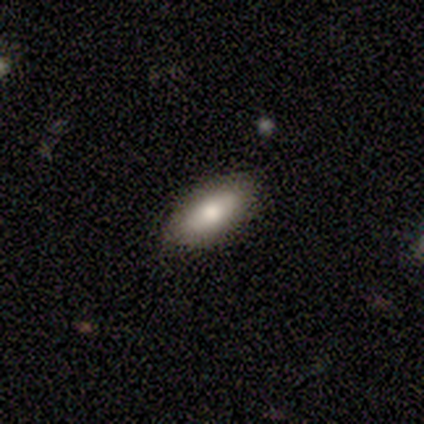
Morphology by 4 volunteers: Smooth or featured? smooth (50%)
How rounded? in between (100%)
Merging? none (100%)